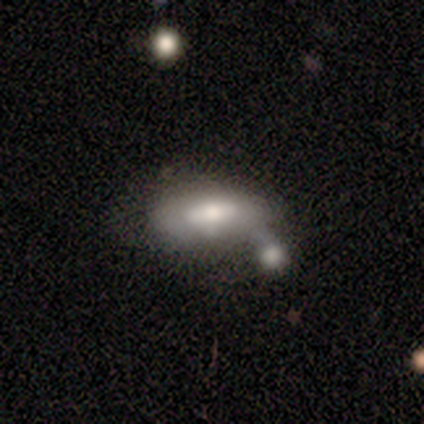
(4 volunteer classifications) A smooth galaxy with no disk features (75%) that is in between round and cigar-shaped (100%). Merging: none (50%, tied with merger).